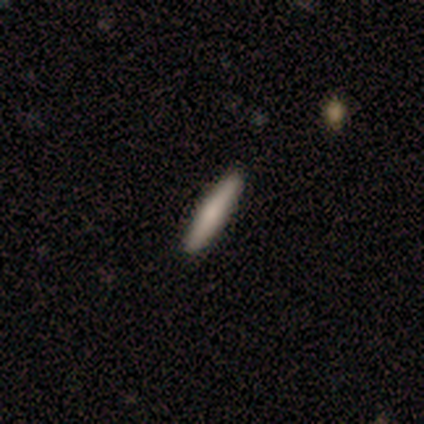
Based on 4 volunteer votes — smooth_or_featured: smooth (p=0.50) [tied with: featured or disk p=0.50]
how_rounded: in between (p=0.50) [tied with: cigar-shaped p=0.50]
merging: none (p=1.00)